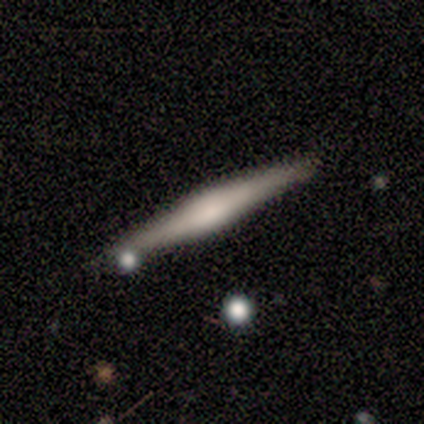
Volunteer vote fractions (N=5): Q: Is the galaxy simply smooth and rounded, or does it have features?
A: featured or disk — 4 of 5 (80%).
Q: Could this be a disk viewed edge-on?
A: yes — 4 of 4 (100%).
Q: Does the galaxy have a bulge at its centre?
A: rounded — 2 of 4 (50%).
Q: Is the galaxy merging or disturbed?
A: none — 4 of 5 (80%).